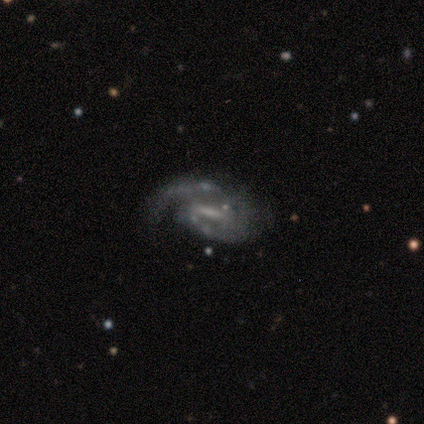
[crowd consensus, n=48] Q: Smooth or featured?
A: featured or disk (88%); runner-up: star or artifact (8%)
Q: Edge-on disk?
A: no (100%)
Q: Bar?
A: strong (60%); runner-up: weak (33%)
Q: Spiral arms?
A: yes (93%); runner-up: no (7%)
Q: Spiral winding?
A: medium (49%); runner-up: tight (36%)
Q: Spiral arm count?
A: 2 (67%); runner-up: 1 (23%)
Q: Bulge size?
A: none (45%); runner-up: small (40%)
Q: Merging?
A: none (45%); runner-up: major disturbance (30%)